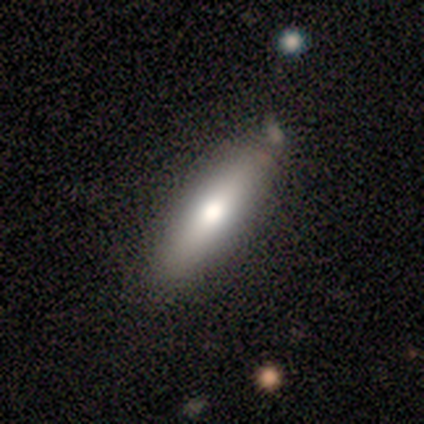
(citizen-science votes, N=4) Morphology: type=smooth (75%); roundness=cigar-shaped (100%); merging=none (100%).